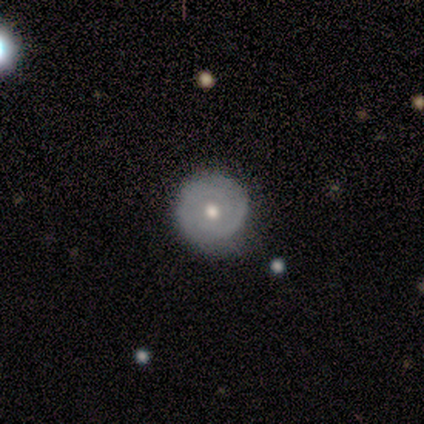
A smooth galaxy with no disk features (60%) that is round (100%). Merging: none (80%).